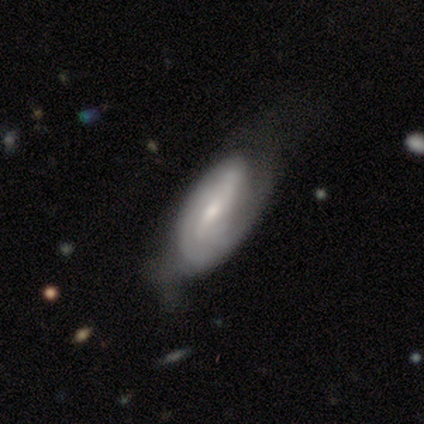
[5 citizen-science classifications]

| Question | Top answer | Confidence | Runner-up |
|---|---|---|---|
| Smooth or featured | smooth | 60% | featured or disk (40%) |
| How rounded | in between | 100% | — |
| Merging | none | 60% | minor disturbance (40%) |